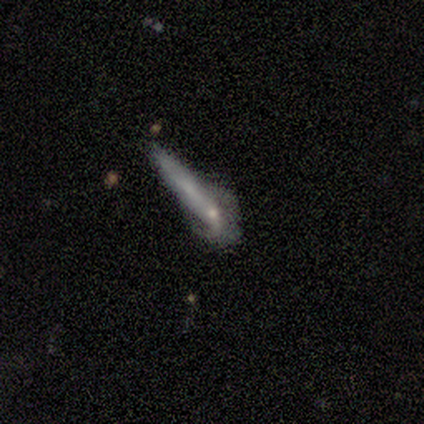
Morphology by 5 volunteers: This appears to be a smooth galaxy with no disk features (80%) that is round (50%, tied with cigar-shaped). Merging: merger (80%).